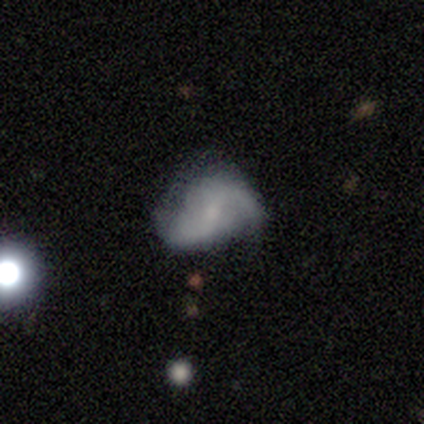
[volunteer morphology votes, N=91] This appears to be a featured or disk galaxy (64%) with a weak bar (55%), 2 (90%) loose (65%) spiral arms (86%) and a small central bulge (57%). Merging: none (46%).